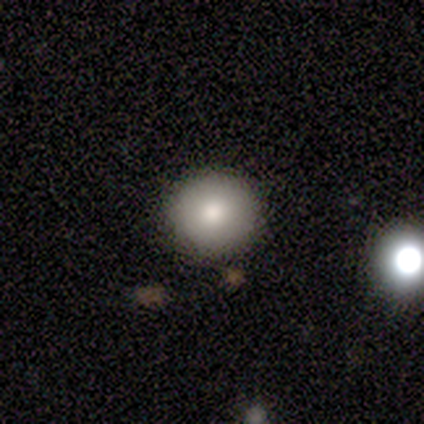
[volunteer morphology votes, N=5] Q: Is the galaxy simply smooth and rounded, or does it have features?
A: smooth — 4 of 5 (80%).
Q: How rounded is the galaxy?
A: round — 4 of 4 (100%).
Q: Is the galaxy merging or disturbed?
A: none — 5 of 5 (100%).